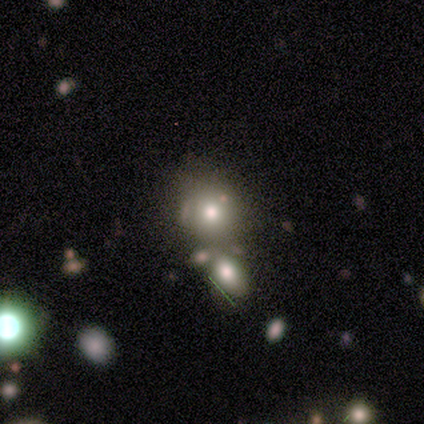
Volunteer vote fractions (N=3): Morphology: type=smooth (67%); roundness=round (100%); merging=none (67%).